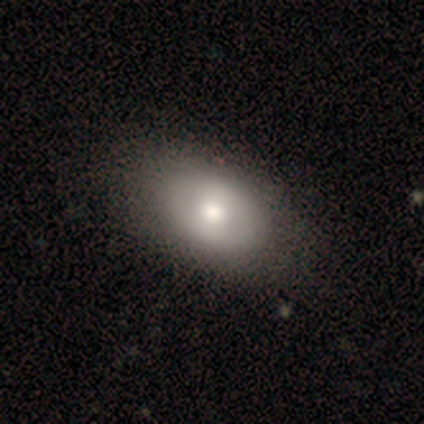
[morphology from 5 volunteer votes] A featured or disk galaxy (60%) with no bar (100%), no spiral arms (100%) and a moderate central bulge (67%). Merging: none (60%).